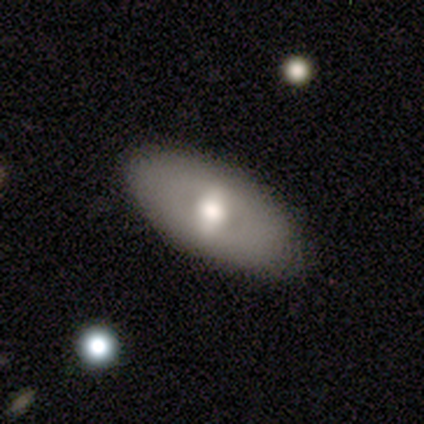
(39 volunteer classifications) A featured or disk galaxy (54%) with a weak bar (40%), no spiral arms (100%) and a moderate central bulge (55%).

Vote fractions:
- Smooth or featured? featured or disk: 54% / smooth: 44% / star or artifact: 3%
- Edge-on disk? no: 95% / yes: 5%
- Bar? weak: 40% / strong: 35% / no: 25%
- Spiral arms? no: 100% / yes: 0%
- Bulge size? moderate: 55% / large: 40% / small: 5% / dominant: 0% / none: 0%
- Merging? none: 71% / minor disturbance: 3% / major disturbance: 0% / merger: 0%